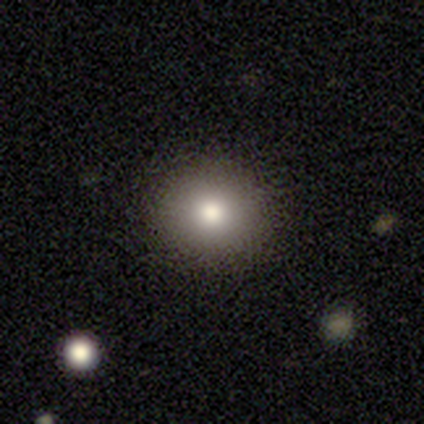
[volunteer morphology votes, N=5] Smooth or featured? 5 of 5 (100%) said smooth. How rounded? 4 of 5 (80%) said round. Merging? 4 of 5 (80%) said none.